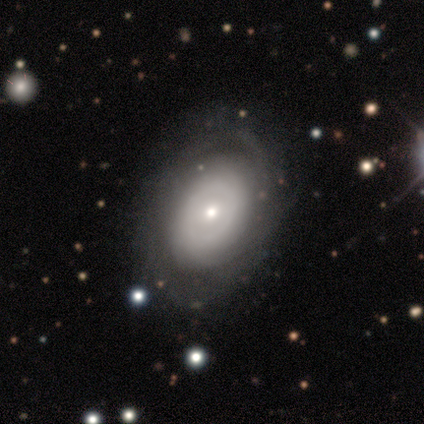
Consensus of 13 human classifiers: This appears to be a featured or disk galaxy (77%) with no bar (89%), tight (62%) spiral arms (89%) and a small central bulge (44%). Merging: none (64%).